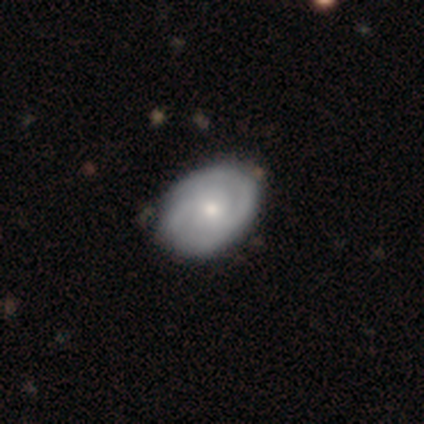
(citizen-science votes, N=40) Smooth or featured? featured or disk (65%)
Edge-on disk? no (100%)
Bar? no (81%)
Spiral arms? yes (81%)
Spiral winding? tight (67%)
Spiral arm count? 2 (86%)
Bulge size? moderate (58%)
Merging? none (50%)